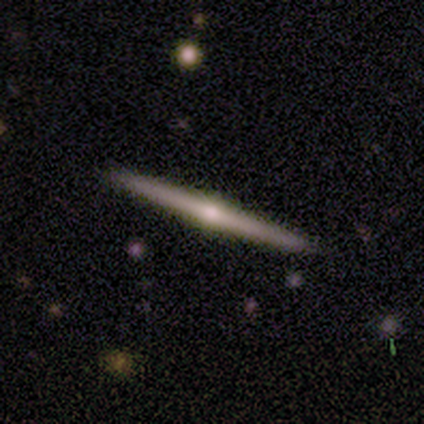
Smooth or featured: featured or disk — 74% (smooth — 18%)
Edge-on disk: yes — 100%
Edge-on bulge: rounded — 100%
Merging: none — 97% (major disturbance — 3%)